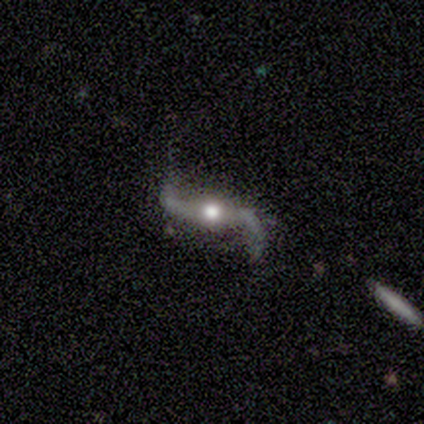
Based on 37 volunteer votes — smooth-or-featured: featured or disk: 92% | star or artifact: 8% | smooth: 0%
  disk-edge-on: no: 91% | yes: 9%
    bar: strong: 42% | no: 39% | weak: 19%
    has-spiral-arms: yes: 97% | no: 3%
      spiral-winding: loose: 97% | tight: 3% | medium: 0%
      spiral-arm-count: 2: 93% | 1: 3% | can't tell: 3% | 3: 0% | 4: 0% | more than 4: 0%
    bulge-size: moderate: 71% | large: 16% | small: 6% | dominant: 3% | none: 3%
  merging: none: 79% | major disturbance: 15% | minor disturbance: 6% | merger: 0%